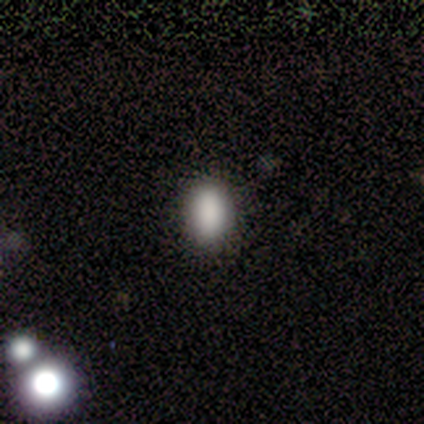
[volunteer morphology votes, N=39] type=smooth (87%); roundness=in between (79%); merging=none (54%).